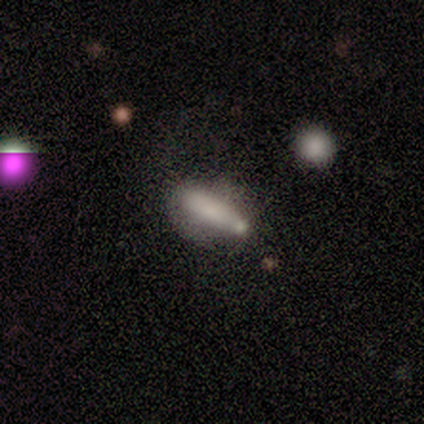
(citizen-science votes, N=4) Smooth or featured? smooth (50%, tied with featured or disk)
How rounded? cigar-shaped (100%)
Merging? none (50%, tied with minor disturbance)